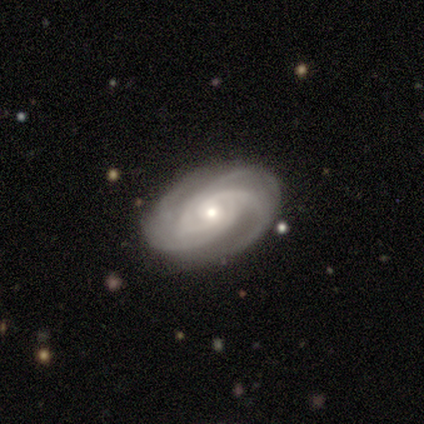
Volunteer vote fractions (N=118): Q: Smooth or featured?
A: featured or disk (92%); runner-up: smooth (7%)
Q: Edge-on disk?
A: no (98%); runner-up: yes (2%)
Q: Bar?
A: no (76%); runner-up: weak (22%)
Q: Spiral arms?
A: yes (98%); runner-up: no (2%)
Q: Spiral winding?
A: tight (66%); runner-up: medium (30%)
Q: Spiral arm count?
A: 3 (52%); runner-up: 4 (28%)
Q: Bulge size?
A: small (56%); runner-up: moderate (40%)
Q: Merging?
A: none (59%); runner-up: minor disturbance (7%)